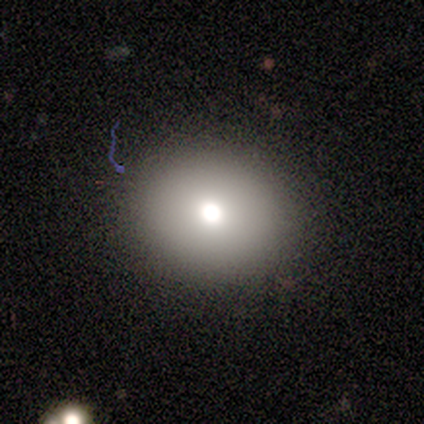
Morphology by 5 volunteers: Smooth or featured: smooth — 80% (featured or disk — 20%)
How rounded: round — 100%
Merging: none — 80% (major disturbance — 20%)